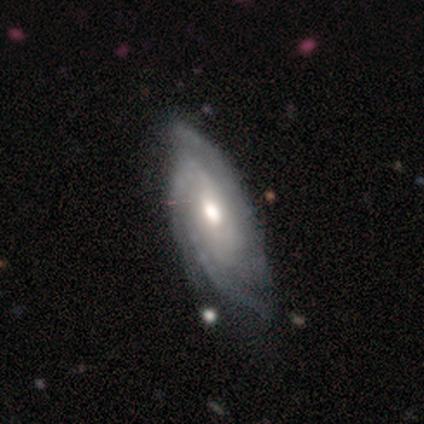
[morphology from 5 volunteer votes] featured or disk 80%, star or artifact 20%, smooth 0%. Down the decision tree: edge-on disk — no (100%); bar — no (100%); spiral arms — yes (100%); spiral arm count — 3 (50%); spiral winding — medium (75%); bulge size — moderate (75%); merging — none (50%, tied with minor disturbance).